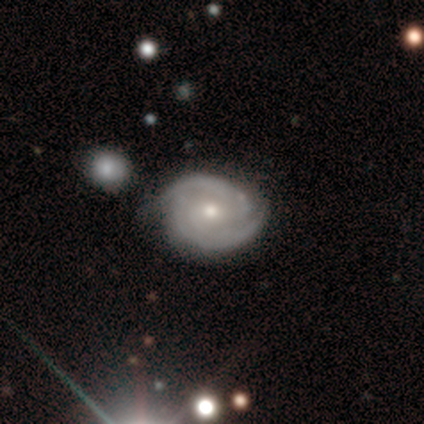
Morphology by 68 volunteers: Smooth or featured? 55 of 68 (81%) said featured or disk. Edge-on disk? 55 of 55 (100%) said no. Bar? 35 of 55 (64%) said no. Spiral arms? 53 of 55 (96%) said yes. Spiral winding? 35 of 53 (66%) said tight. Spiral arm count? 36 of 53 (68%) said 2. Bulge size? 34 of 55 (62%) said moderate. Merging? 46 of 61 (75%) said none.